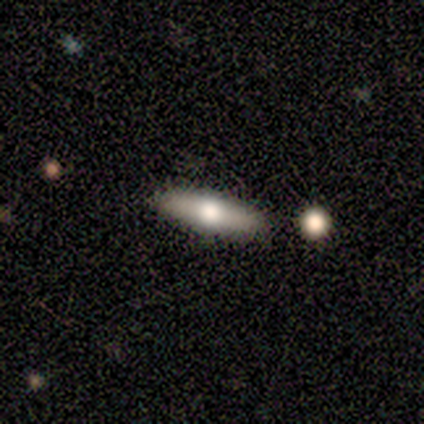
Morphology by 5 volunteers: Volunteers were most divided on "how rounded" (2-way tie): in between: 50%, cigar-shaped: 50%, round: 0%. More confident: smooth or featured — smooth (80%); merging — none (80%).